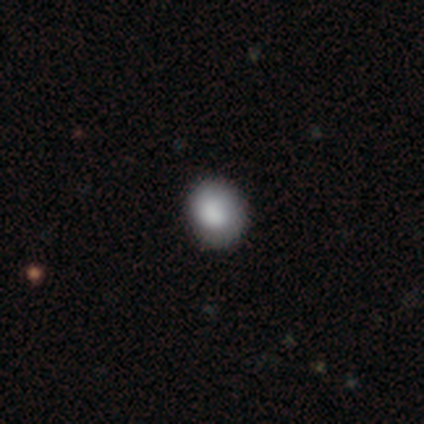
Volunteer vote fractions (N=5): Smooth or featured?
  - smooth: 100% *
  - featured or disk: 0%
  - star or artifact: 0%
How rounded?
  - in between: 60% *
  - round: 40%
  - cigar-shaped: 0%
Merging?
  - none: 60% *
  - minor disturbance: 40%
  - major disturbance: 0%
  - merger: 0%